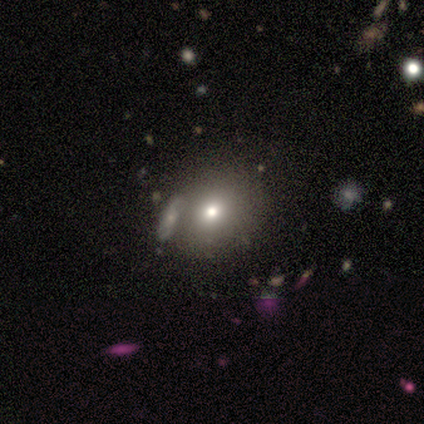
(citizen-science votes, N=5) Smooth or featured?
  - smooth: 60% *
  - featured or disk: 40%
  - star or artifact: 0%
How rounded?
  - round: 100% *
  - in between: 0%
  - cigar-shaped: 0%
Merging?
  - none: 60% *
  - major disturbance: 20%
  - merger: 20%
  - minor disturbance: 0%